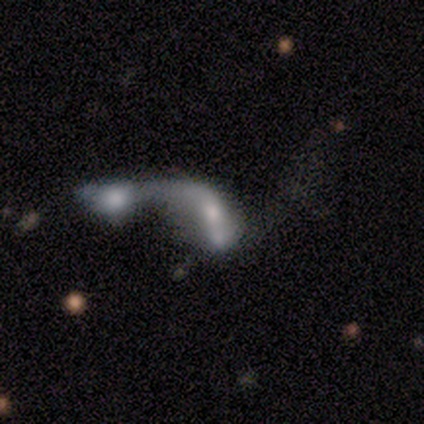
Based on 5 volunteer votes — Volunteers were most divided on "smooth or featured": featured or disk: 60%, smooth: 40%, star or artifact: 0%. More confident: edge-on disk — no (100%); bar — no (100%); spiral arms — no (100%); bulge size — moderate (67%); merging — merger (60%).